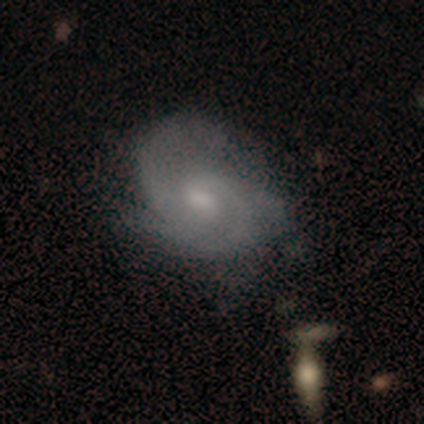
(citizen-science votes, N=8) Smooth or featured: featured or disk — 88% (smooth — 12%)
Edge-on disk: no — 100%
Bar: no — 71% (weak — 29%)
Spiral arms: yes — 86% (no — 14%)
Spiral winding: tight — 50% (tied with medium — 50%)
Spiral arm count: 2 — 33% (tied with 3 — 33%)
Bulge size: moderate — 57% (small — 43%)
Merging: minor disturbance — 50% (none — 38%)